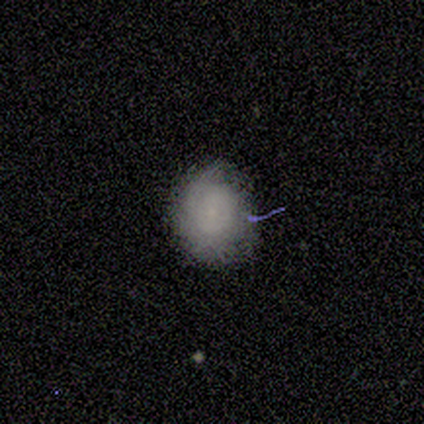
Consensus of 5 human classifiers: A smooth galaxy with no disk features (100%) that is round (100%).

Vote fractions:
- Smooth or featured? smooth: 100% / featured or disk: 0% / star or artifact: 0%
- How rounded? round: 100% / in between: 0% / cigar-shaped: 0%
- Merging? none: 100% / minor disturbance: 0% / major disturbance: 0% / merger: 0%